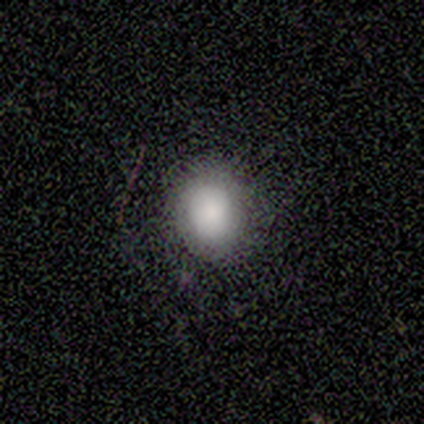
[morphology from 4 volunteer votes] A smooth galaxy with no disk features (100%) that is round (75%). Merging: none (100%).